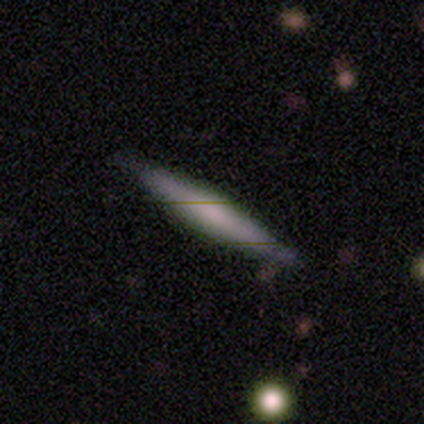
smooth-or-featured: smooth: 100% | featured or disk: 0% | star or artifact: 0%
  how-rounded: cigar-shaped: 80% | in between: 20% | round: 0%
  merging: none: 100% | minor disturbance: 0% | major disturbance: 0% | merger: 0%